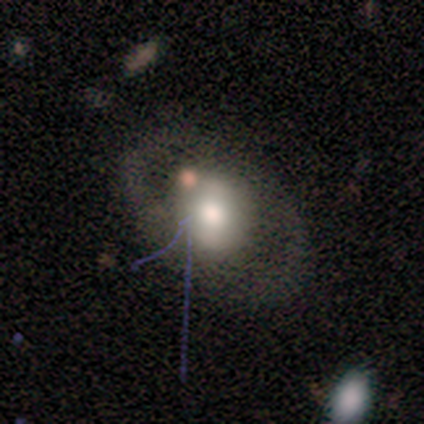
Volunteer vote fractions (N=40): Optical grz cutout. It shows a featured or disk galaxy (60%) with no bar (67%), no spiral arms (79%) and a large central bulge (46%). Merging: none (74%).